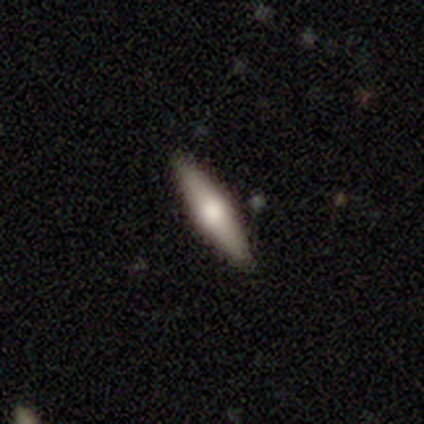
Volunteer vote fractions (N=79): smooth-or-featured: smooth: 51% | featured or disk: 43% | star or artifact: 6%
  how-rounded: cigar-shaped: 70% | in between: 30% | round: 0%
  merging: none: 46% | minor disturbance: 14% | merger: 1% | major disturbance: 0%